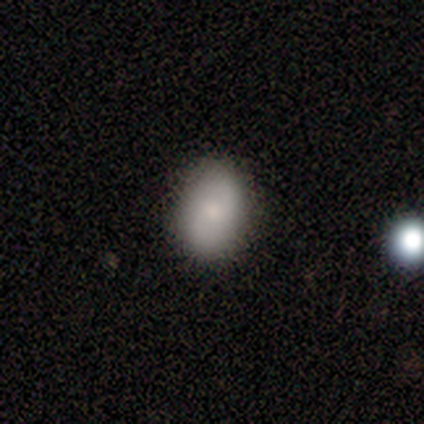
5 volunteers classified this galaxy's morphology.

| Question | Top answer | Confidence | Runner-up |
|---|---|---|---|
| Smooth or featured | smooth | 80% | featured or disk (20%) |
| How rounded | in between | 75% | cigar-shaped (25%) |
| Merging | none | 80% | minor disturbance (20%) |